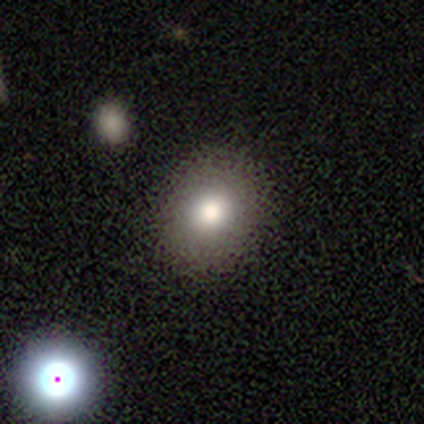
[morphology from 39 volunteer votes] Q: Smooth or featured?
A: smooth (79%); runner-up: featured or disk (13%)
Q: How rounded?
A: round (71%); runner-up: in between (29%)
Q: Merging?
A: none (83%); runner-up: minor disturbance (11%)